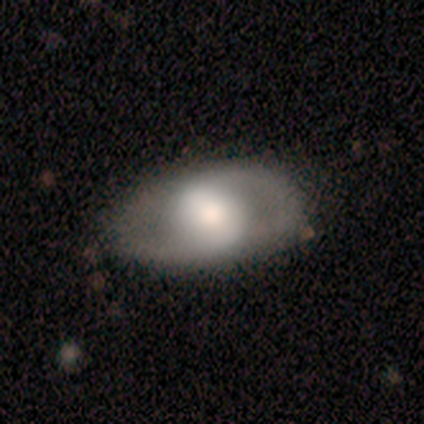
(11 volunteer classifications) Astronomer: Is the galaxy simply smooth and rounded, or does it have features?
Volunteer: featured or disk — 55% (runner-up: smooth, 36%).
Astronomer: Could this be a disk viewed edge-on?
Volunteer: no — 83%.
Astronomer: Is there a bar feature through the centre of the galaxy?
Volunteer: weak — 80%.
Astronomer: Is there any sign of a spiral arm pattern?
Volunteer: yes — 100%.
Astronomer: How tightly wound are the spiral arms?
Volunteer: tight — 40%, tied with loose at 40%.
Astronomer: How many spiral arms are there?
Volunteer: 2 — 100%.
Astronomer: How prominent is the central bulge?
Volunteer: large — 40% (runner-up: dominant, 20%).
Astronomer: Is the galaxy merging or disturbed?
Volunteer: none — 100%.